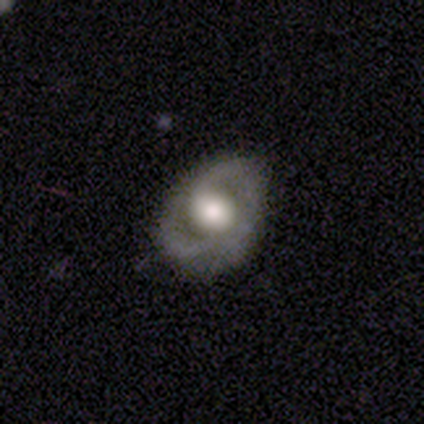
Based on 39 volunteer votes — A featured or disk galaxy (74%) with no bar (66%), no spiral arms (52%) and a large central bulge (66%). Merging: none (72%).